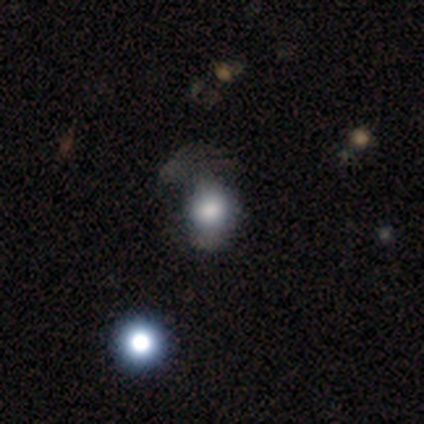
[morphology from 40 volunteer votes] This is likely a smooth galaxy (75%). How rounded: possibly round (57%). Merging: marginally none (26%).